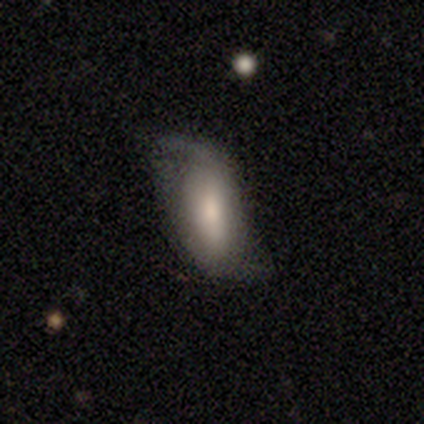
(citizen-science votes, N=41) smooth-or-featured: featured or disk: 56% | smooth: 41% | star or artifact: 2%
  disk-edge-on: no: 91% | yes: 9%
    bar: strong: 48% | weak: 29% | no: 24%
    has-spiral-arms: yes: 95% | no: 5%
      spiral-winding: loose: 95% | medium: 5% | tight: 0%
      spiral-arm-count: 2: 100% | 1: 0% | 3: 0% | 4: 0% | more than 4: 0% | can't tell: 0%
    bulge-size: moderate: 43% | large: 29% | none: 14% | small: 10% | dominant: 5%
  merging: none: 52% | minor disturbance: 22% | major disturbance: 20% | merger: 5%